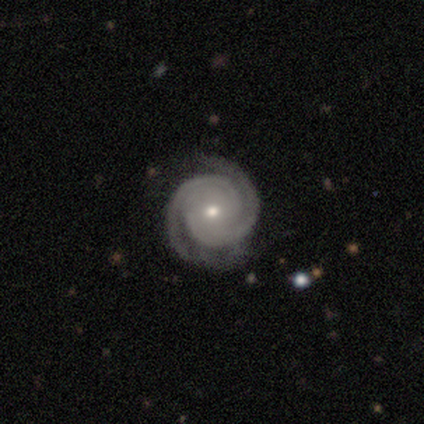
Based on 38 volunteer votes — Volunteers were most divided on "bulge size": small: 62%, moderate: 32%, large: 3%, none: 3%, dominant: 0%. More confident: edge-on disk — no (100%); spiral arms — yes (100%); smooth or featured — featured or disk (97%); spiral arm count — 2 (97%); spiral winding — tight (86%); bar — no (84%); merging — none (70%).